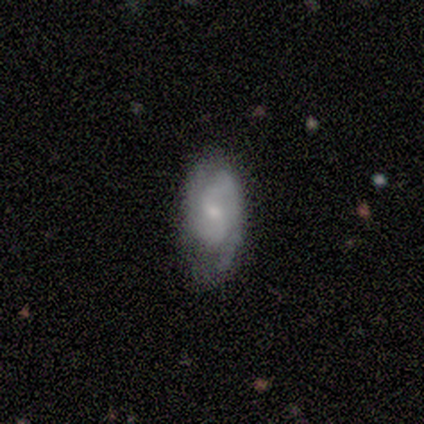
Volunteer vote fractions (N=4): A smooth galaxy with no disk features (50%, tied with featured or disk) that is in between round and cigar-shaped (100%). Merging: none (50%, tied with minor disturbance).